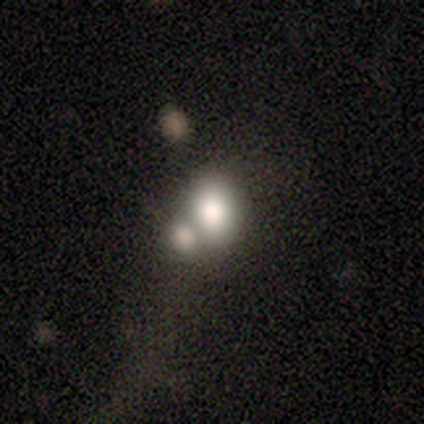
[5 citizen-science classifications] A smooth galaxy with no disk features (80%) that is in between round and cigar-shaped (75%).

Vote fractions:
- Smooth or featured? smooth: 80% / featured or disk: 20% / star or artifact: 0%
- How rounded? in between: 75% / round: 25% / cigar-shaped: 0%
- Merging? merger: 80% / none: 20% / minor disturbance: 0% / major disturbance: 0%